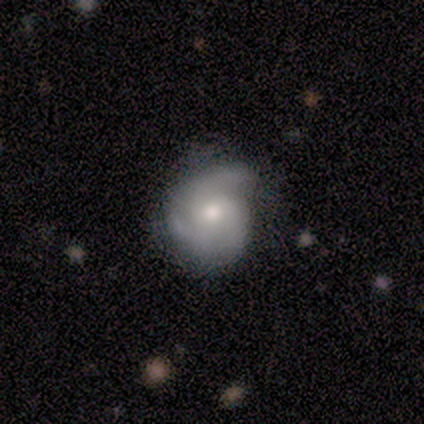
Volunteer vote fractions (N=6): This appears to be a featured or disk galaxy (83%) with no bar (80%), 2 (60%) tight (40%, tied with medium) spiral arms (100%) and a moderate central bulge (100%). Merging: none (83%).